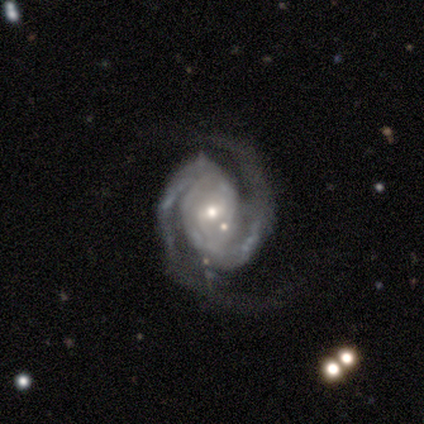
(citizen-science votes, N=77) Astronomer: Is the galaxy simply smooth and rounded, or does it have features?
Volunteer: featured or disk — 96%.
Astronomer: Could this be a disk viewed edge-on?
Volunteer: no — 100%.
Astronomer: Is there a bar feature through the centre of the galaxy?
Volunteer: weak — 46% (runner-up: no, 39%).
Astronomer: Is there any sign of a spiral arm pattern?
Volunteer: yes — 99%.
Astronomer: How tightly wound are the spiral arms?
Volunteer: tight — 44% (runner-up: medium, 38%).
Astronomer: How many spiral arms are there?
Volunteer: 2 — 92%.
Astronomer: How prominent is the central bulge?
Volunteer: small — 51% (runner-up: moderate, 42%).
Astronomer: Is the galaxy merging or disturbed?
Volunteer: none — 28% (runner-up: minor disturbance, 14%).